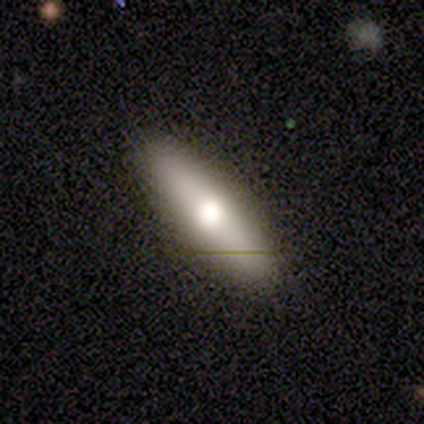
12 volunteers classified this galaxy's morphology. Smooth or featured?
  - smooth: 50% *
  - featured or disk: 42%
  - star or artifact: 8%
How rounded?
  - cigar-shaped: 67% *
  - round: 17%
  - in between: 17%
Merging?
  - none: 64% *
  - minor disturbance: 36%
  - major disturbance: 0%
  - merger: 0%